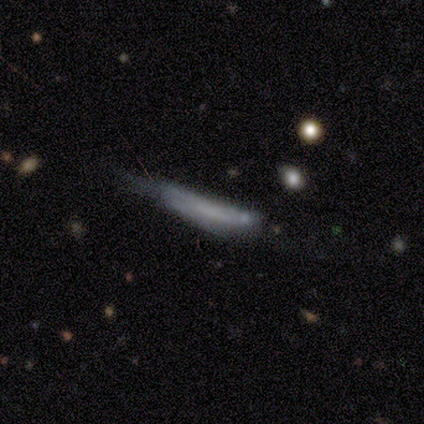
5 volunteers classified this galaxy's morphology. type=featured or disk (60%); edge-on=yes (100%); edge-on bulge=none (100%); merging=minor disturbance (60%).